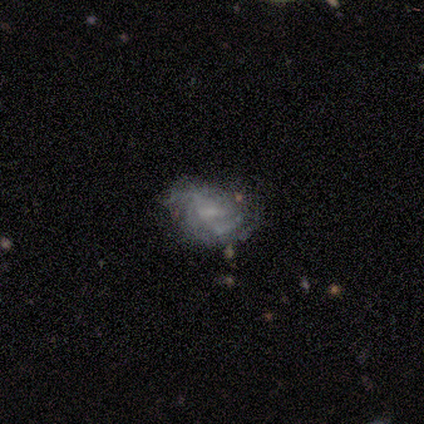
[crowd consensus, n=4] smooth-or-featured: smooth: 50% (tied) | featured or disk: 50% (tied) | star or artifact: 0%
  how-rounded: round: 50% (tied) | in between: 50% (tied) | cigar-shaped: 0%
  merging: none: 50% (tied) | minor disturbance: 50% (tied) | major disturbance: 0% | merger: 0%